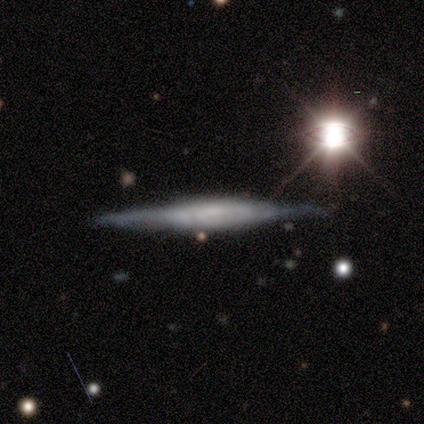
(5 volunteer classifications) smooth-or-featured: featured or disk: 80% | smooth: 20% | star or artifact: 0%
  disk-edge-on: yes: 75% | no: 25%
    edge-on-bulge: none: 67% | boxy: 33% | rounded: 0%
  merging: none: 40% (tied) | minor disturbance: 40% (tied) | merger: 20% | major disturbance: 0%